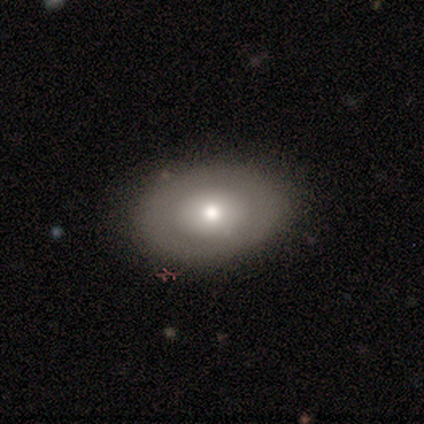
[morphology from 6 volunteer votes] Q: Smooth or featured?
A: smooth (67%); runner-up: featured or disk (33%)
Q: How rounded?
A: in between (50%); runner-up: round (25%)
Q: Merging?
A: none (67%); runner-up: major disturbance (17%)